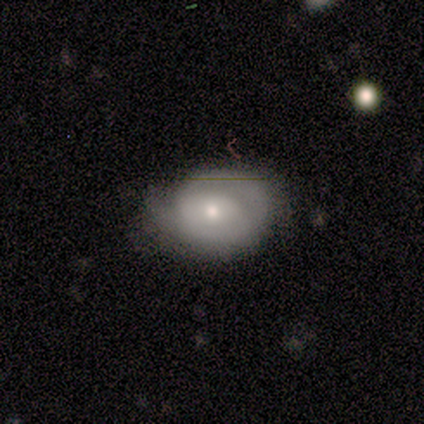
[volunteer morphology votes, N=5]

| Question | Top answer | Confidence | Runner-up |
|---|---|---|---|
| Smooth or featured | smooth | 60% | featured or disk (40%) |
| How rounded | in between | 67% | round (33%) |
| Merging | minor disturbance | 60% | none (20%) |